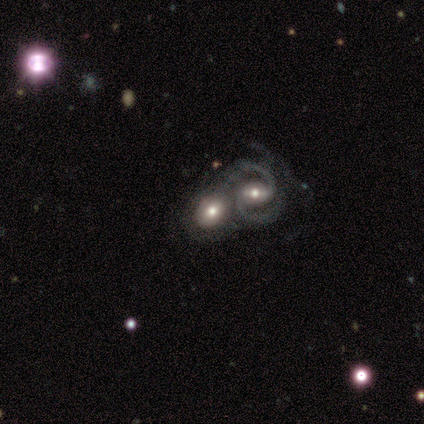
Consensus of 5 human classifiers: Smooth or featured? 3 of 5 (60%) said featured or disk. Edge-on disk? 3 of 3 (100%) said no. Bar? 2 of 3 (67%) said no. Spiral arms? 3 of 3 (100%) said yes. Spiral winding? 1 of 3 (33%, tied with medium and loose) said tight. Spiral arm count? 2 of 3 (67%) said can't tell. Bulge size? 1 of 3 (33%, tied with large and moderate) said dominant. Merging? 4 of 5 (80%) said merger.